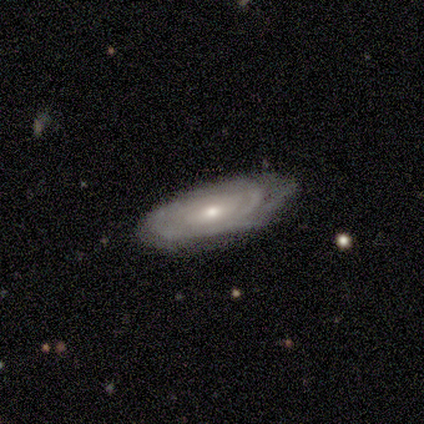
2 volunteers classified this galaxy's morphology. smooth 50% (tied), featured or disk 50% (tied), star or artifact 0%. Down the decision tree: how rounded — in between (100%); merging — none (100%).